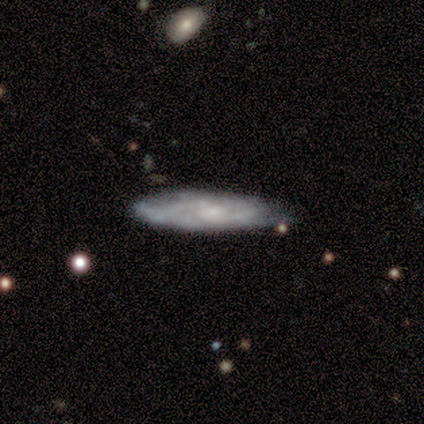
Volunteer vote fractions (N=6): Smooth or featured? featured or disk (100%)
Edge-on disk? no (83%)
Bar? no (80%)
Spiral arms? yes (100%)
Spiral winding? tight (60%)
Spiral arm count? can't tell (60%)
Bulge size? small (60%)
Merging? none (67%)